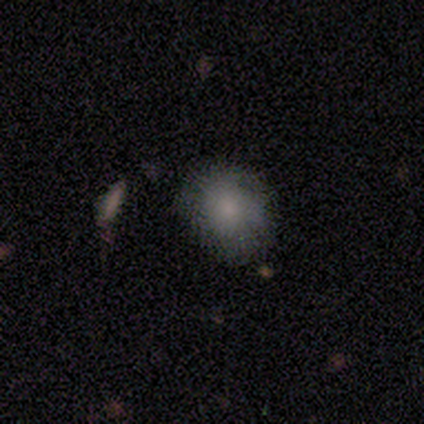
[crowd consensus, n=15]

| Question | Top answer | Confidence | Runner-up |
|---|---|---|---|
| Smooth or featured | smooth | 80% | star or artifact (13%) |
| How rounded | round | 50% | tied: in between (50%) |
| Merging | none | 69% | minor disturbance (23%) |